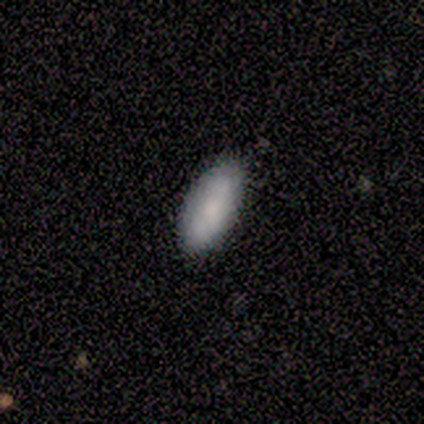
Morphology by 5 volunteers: This is clearly a smooth galaxy (80%). How rounded: clearly in between (100%). Merging: clearly none (80%).